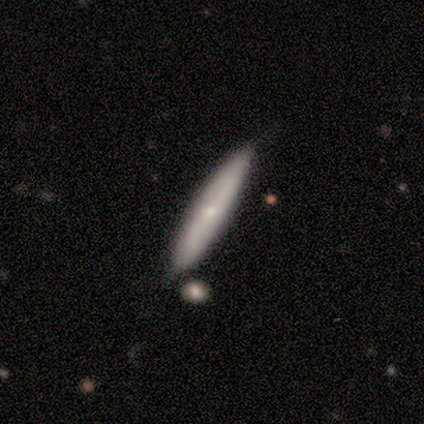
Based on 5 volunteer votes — This is likely a smooth galaxy (60%). How rounded: clearly cigar-shaped (100%). Merging: likely none (75%).